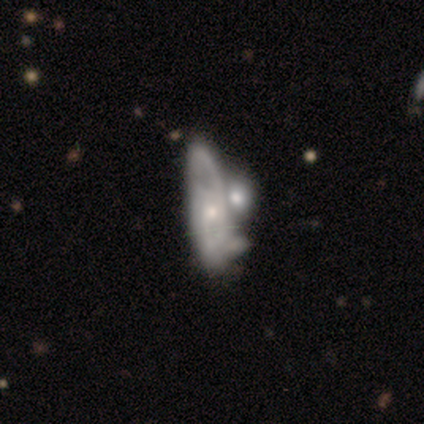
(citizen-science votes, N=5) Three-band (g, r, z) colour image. It shows a featured or disk galaxy (60%) with no bar (100%), 2 (50%, tied with can't tell) tight (50%, tied with medium) spiral arms (67%) and a small central bulge (100%). Merging: major disturbance (40%, tied with merger).